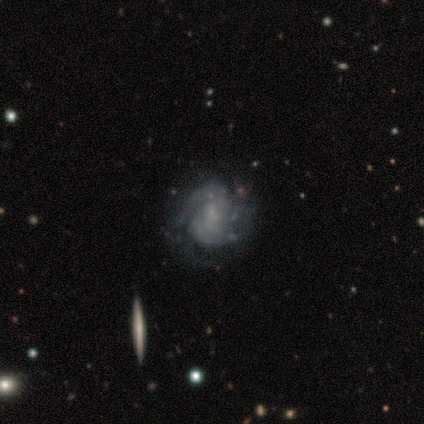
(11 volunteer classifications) Overall: featured or disk (91%). Edge-on disk: no (100%). Bar: no (90%). Spiral arms: yes (100%). Spiral arm count: 2 (40%, tied with can't tell). Spiral winding: tight (70%; medium 30%). Bulge size: none (50%; moderate 30%). Merging: none (64%).